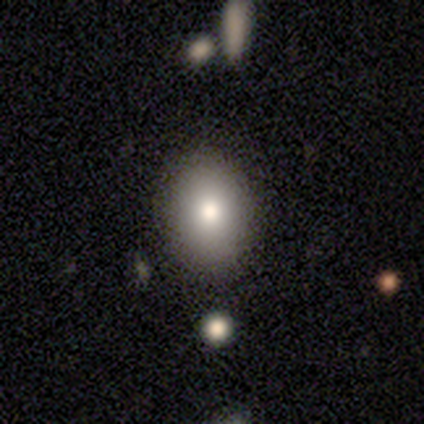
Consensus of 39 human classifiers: smooth_or_featured: smooth (p=0.87) [alt: star or artifact p=0.08]
how_rounded: in between (p=0.71) [alt: round p=0.29]
merging: none (p=0.89) [alt: minor disturbance p=0.08]